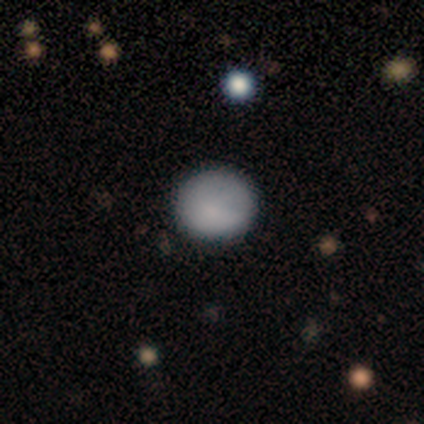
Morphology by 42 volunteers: Volunteers were most divided on "smooth or featured": smooth: 88%, featured or disk: 12%, star or artifact: 0%. More confident: how rounded — round (95%); merging — none (86%).